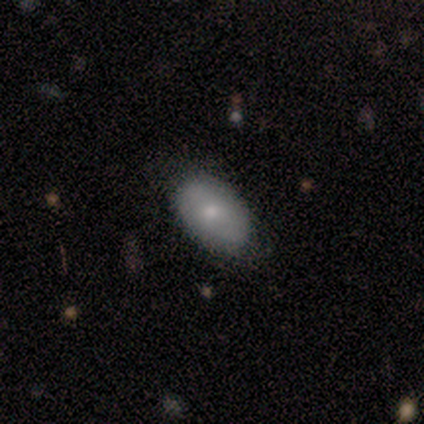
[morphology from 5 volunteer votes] Q: Smooth or featured?
A: smooth (100%)
Q: How rounded?
A: in between (100%)
Q: Merging?
A: none (100%)